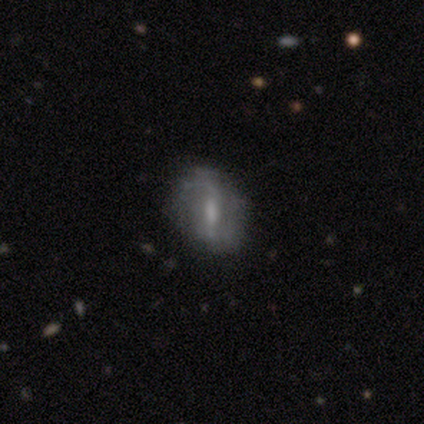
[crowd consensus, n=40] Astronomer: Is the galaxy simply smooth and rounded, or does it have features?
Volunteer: featured or disk — 70%.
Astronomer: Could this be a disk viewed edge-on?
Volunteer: no — 96%.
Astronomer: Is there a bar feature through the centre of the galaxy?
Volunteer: weak — 48% (runner-up: strong, 37%).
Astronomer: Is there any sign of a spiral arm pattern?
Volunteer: yes — 70%.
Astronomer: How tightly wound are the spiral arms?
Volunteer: loose — 63%.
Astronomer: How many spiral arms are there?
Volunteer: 2 — 74%.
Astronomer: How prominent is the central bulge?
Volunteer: small — 41% (runner-up: moderate, 30%).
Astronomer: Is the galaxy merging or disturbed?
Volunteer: none — 76%.